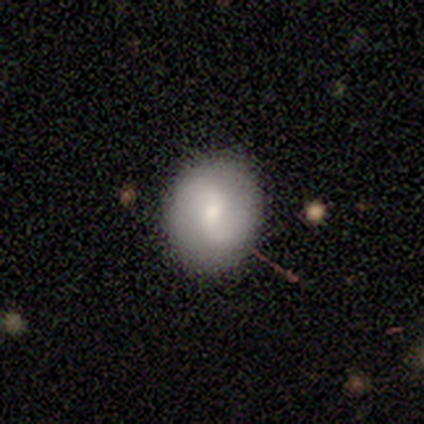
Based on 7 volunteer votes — Q: Smooth or featured?
A: smooth (71%); runner-up: featured or disk (29%)
Q: How rounded?
A: in between (60%); runner-up: round (40%)
Q: Merging?
A: none (86%); runner-up: minor disturbance (14%)